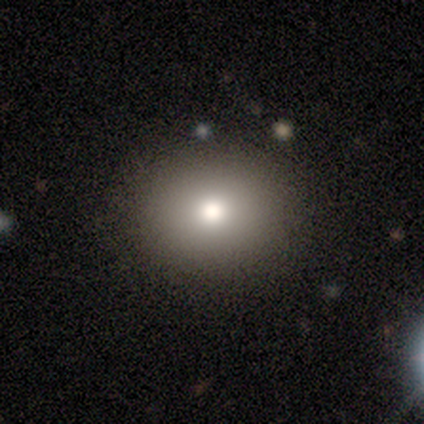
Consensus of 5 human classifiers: Volunteers were most divided on "how rounded": round: 75%, in between: 25%, cigar-shaped: 0%. More confident: merging — none (100%); smooth or featured — smooth (80%).